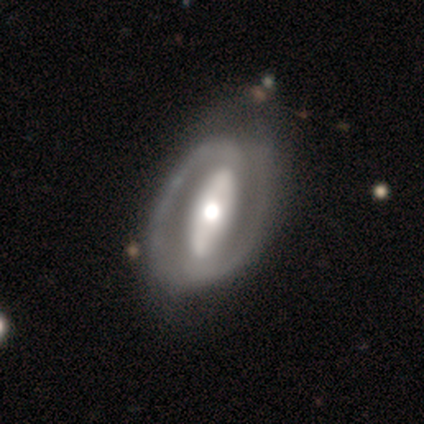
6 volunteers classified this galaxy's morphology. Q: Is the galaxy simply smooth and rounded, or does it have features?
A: featured or disk — 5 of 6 (83%).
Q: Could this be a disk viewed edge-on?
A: no — 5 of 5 (100%).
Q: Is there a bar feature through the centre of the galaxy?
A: strong — 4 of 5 (80%).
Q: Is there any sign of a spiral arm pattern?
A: yes — 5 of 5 (100%).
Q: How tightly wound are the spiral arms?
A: medium — 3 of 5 (60%).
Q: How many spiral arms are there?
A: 2 — 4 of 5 (80%).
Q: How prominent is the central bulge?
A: large — 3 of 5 (60%).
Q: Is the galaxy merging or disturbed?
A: none — 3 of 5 (60%).